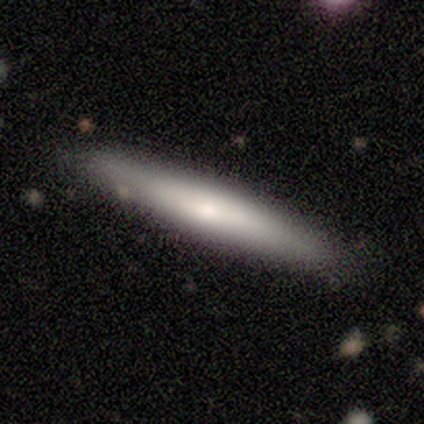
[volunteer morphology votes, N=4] This is likely a featured or disk galaxy (75%). It is likely viewed edge-on (67%). Edge-on bulge: clearly rounded (100%). Merging: possibly none (50%).